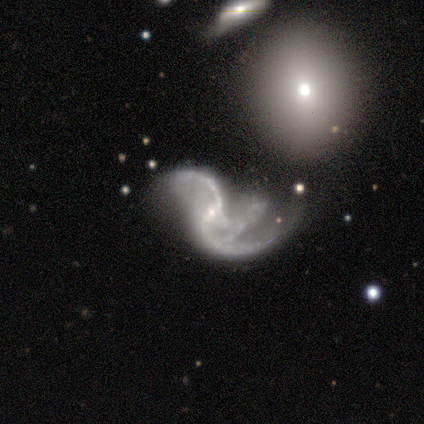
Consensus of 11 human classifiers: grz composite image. It shows a featured or disk galaxy (100%) with no bar (55%), 2 (45%, tied with 3) loose (64%) spiral arms (100%) and a small central bulge (55%). Merging: none (36%, tied with major disturbance).